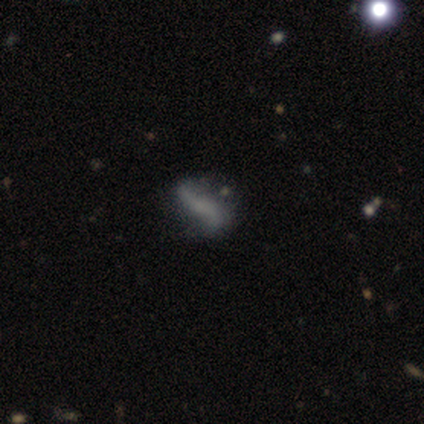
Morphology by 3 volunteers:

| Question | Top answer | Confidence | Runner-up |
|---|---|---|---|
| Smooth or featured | featured or disk | 67% | smooth (33%) |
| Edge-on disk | yes | 50% | tied: no (50%) |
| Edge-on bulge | rounded | 100% | — |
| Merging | none | 33% | tied: minor disturbance (33%), major disturbance (33%) |